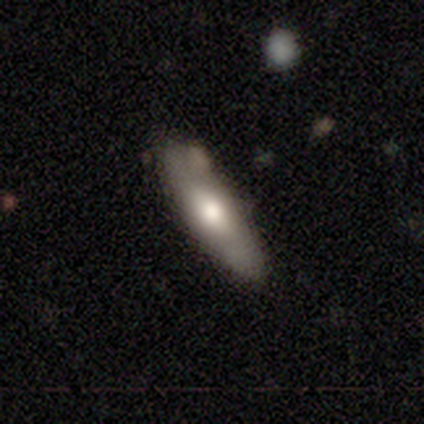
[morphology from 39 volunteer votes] A smooth galaxy with no disk features (69%) that is in between round and cigar-shaped (70%). Merging: none (87%).